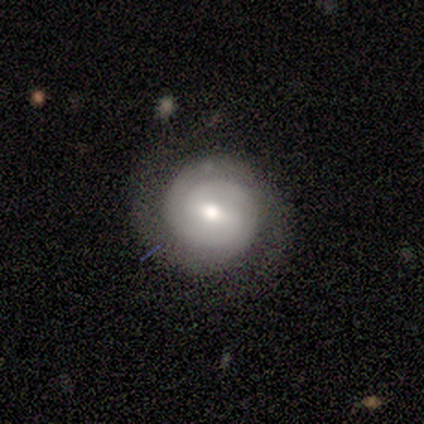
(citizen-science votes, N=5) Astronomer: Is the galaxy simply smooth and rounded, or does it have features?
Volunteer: featured or disk — 80%.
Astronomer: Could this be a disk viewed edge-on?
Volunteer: no — 100%.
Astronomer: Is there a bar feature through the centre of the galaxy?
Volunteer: weak — 100%.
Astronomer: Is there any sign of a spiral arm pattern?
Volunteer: yes — 100%.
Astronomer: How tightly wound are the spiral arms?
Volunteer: tight — 75%.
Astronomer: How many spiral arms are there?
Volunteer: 2 — 75%.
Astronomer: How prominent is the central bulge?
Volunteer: moderate — 75%.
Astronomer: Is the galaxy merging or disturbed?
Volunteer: none — 80%.